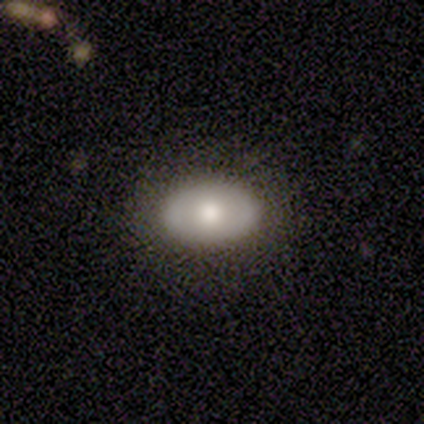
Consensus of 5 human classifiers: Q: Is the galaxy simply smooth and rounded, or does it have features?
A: featured or disk — 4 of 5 (80%).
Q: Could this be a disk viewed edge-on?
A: no — 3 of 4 (75%).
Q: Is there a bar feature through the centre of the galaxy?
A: no — 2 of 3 (67%).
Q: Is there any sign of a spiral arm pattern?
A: no — 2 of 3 (67%).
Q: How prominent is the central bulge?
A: moderate — 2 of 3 (67%).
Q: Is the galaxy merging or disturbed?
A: none — 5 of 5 (100%).